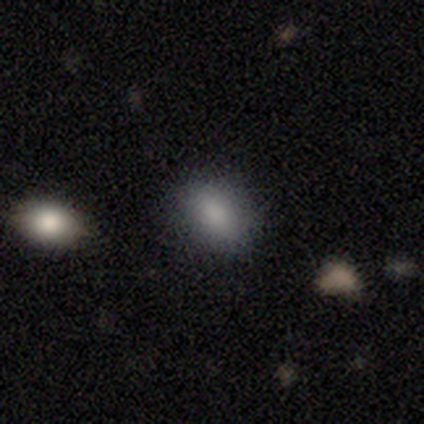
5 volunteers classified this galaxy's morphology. smooth 60%, featured or disk 20%, star or artifact 20%. Down the decision tree: how rounded — in between (67%); merging — none (100%).